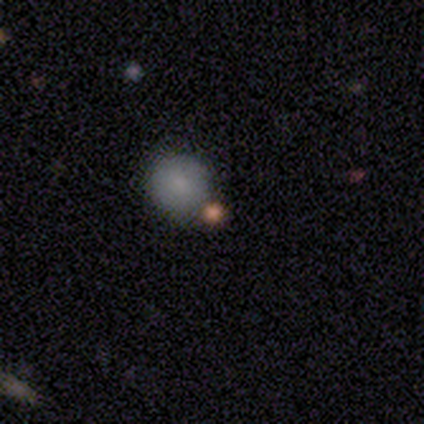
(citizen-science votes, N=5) smooth 60%, star or artifact 40%, featured or disk 0%. Down the decision tree: how rounded — round (100%); merging — none (67%).